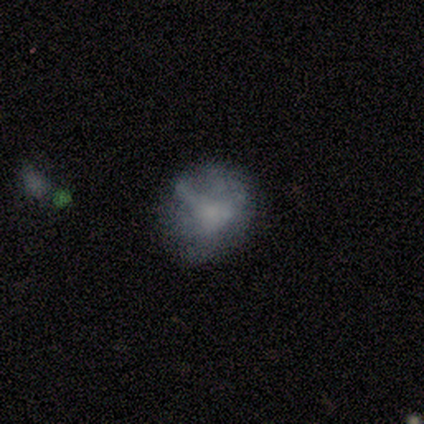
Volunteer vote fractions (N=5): Overall: smooth (60%; featured or disk 20%). How rounded: round (100%). Merging: none (50%, tied with minor disturbance).